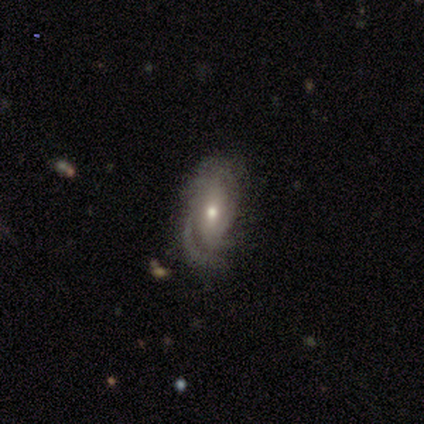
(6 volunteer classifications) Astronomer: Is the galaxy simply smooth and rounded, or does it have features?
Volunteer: featured or disk — 100%.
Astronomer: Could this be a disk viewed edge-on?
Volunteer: no — 83%.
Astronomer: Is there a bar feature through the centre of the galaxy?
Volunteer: weak — 40%, tied with no at 40%.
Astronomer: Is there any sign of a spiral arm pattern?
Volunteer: yes — 80%.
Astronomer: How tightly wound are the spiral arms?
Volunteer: tight — 75%.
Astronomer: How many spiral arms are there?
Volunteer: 1 — 50%.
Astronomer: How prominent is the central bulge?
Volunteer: moderate — 60% (runner-up: small, 40%).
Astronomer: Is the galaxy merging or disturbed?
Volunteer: none — 50% (runner-up: major disturbance, 33%).